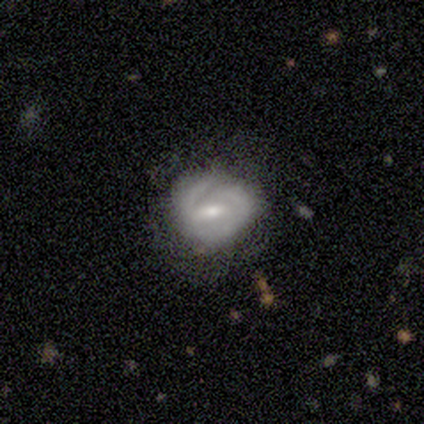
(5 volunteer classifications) Overall: featured or disk (80%). Edge-on disk: no (100%). Bar: weak (50%; strong 25%). Spiral arms: yes (75%). Spiral arm count: 2 (67%; can't tell 33%). Spiral winding: tight (67%; medium 33%). Bulge size: small (75%). Merging: none (100%).